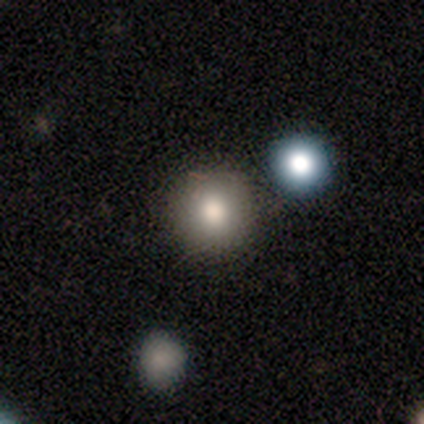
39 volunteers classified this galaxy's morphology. This appears to be a smooth galaxy with no disk features (72%) that is round (96%). Merging: none (81%).